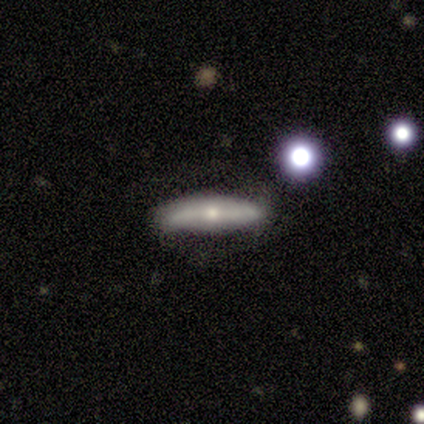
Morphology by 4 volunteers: Smooth or featured?
  - smooth: 100% *
  - featured or disk: 0%
  - star or artifact: 0%
How rounded?
  - cigar-shaped: 100% *
  - round: 0%
  - in between: 0%
Merging?
  - none: 75% *
  - minor disturbance: 25%
  - major disturbance: 0%
  - merger: 0%